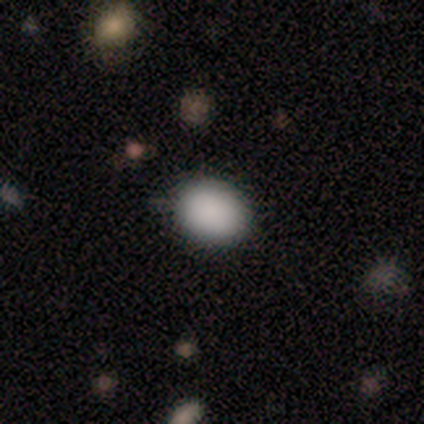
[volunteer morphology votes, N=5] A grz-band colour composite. It shows a smooth galaxy with no disk features (80%) that is in between round and cigar-shaped (50%). Merging: none (75%).